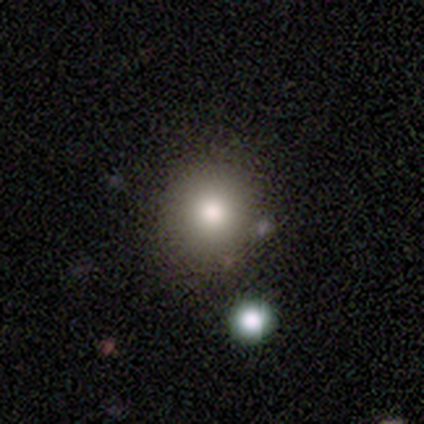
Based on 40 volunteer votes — Smooth or featured? smooth (75%)
How rounded? round (87%)
Merging? none (71%)